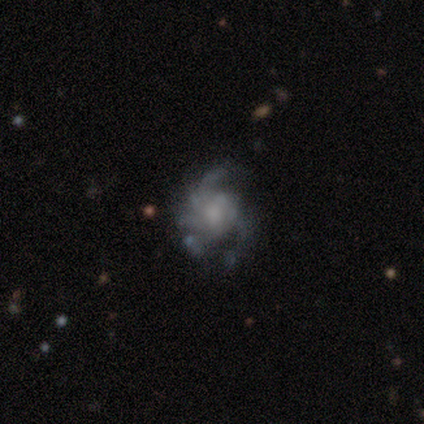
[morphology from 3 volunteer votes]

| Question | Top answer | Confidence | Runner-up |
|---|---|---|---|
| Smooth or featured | featured or disk | 100% | — |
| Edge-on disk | no | 100% | — |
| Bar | no | 100% | — |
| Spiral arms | yes | 67% | no (33%) |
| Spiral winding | medium | 50% | tied: loose (50%) |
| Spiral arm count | can't tell | 100% | — |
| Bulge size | moderate | 67% | large (33%) |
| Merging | minor disturbance | 67% | major disturbance (33%) |